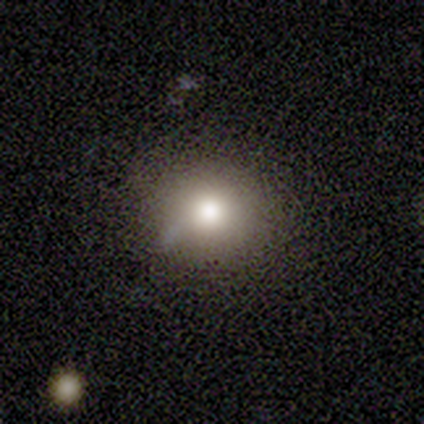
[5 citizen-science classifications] smooth_or_featured: smooth (p=0.80) [alt: featured or disk p=0.20]
how_rounded: round (p=0.75) [alt: in between p=0.25]
merging: none (p=0.80) [alt: minor disturbance p=0.20]